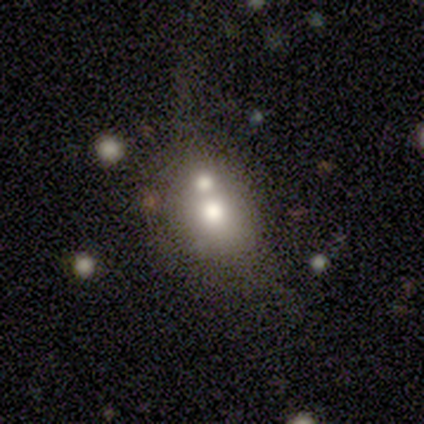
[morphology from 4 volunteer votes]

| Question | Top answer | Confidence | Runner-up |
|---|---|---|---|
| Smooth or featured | smooth | 50% | tied: featured or disk (50%) |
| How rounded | in between | 100% | — |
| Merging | major disturbance | 50% | none (25%) |